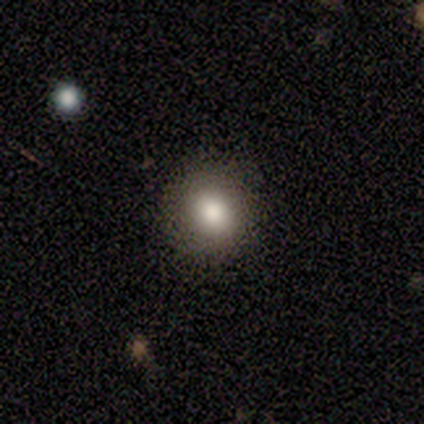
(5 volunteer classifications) Morphology: type=smooth (100%); roundness=round (100%); merging=none (100%).